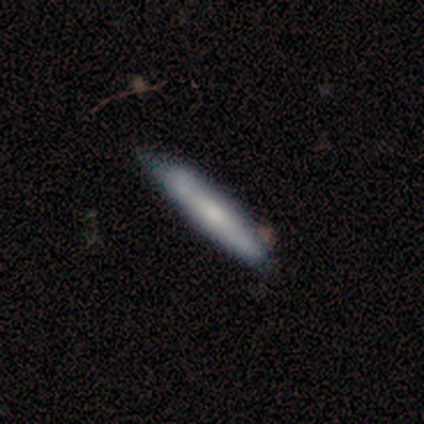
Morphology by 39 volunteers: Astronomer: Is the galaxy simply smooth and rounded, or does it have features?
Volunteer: smooth — 51% (runner-up: featured or disk, 46%).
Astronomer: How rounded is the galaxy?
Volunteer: cigar-shaped — 85%.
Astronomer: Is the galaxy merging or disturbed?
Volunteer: none — 58%.